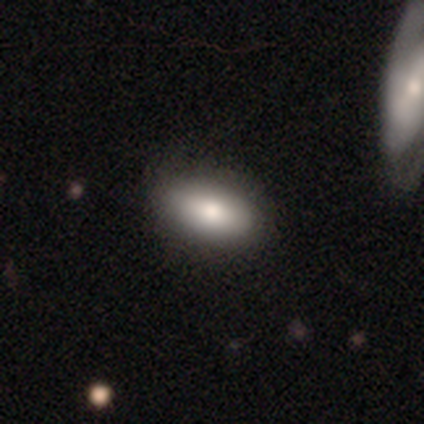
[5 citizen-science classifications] Smooth or featured: smooth — 80% (star or artifact — 20%)
How rounded: in between — 100%
Merging: none — 75% (major disturbance — 25%)